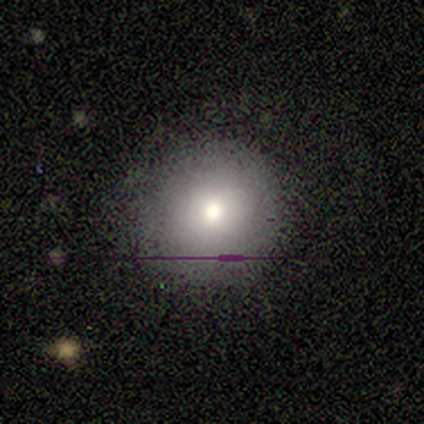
This is clearly a smooth galaxy (80%). How rounded: clearly round (100%). Merging: clearly none (80%).